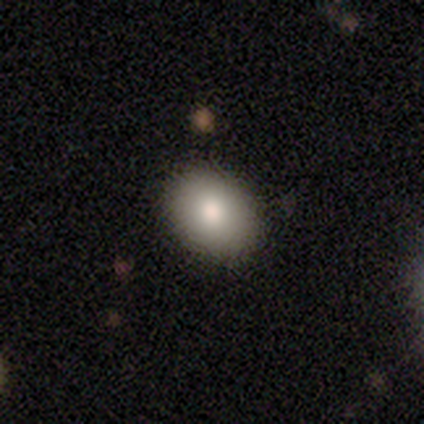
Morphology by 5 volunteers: This is clearly a smooth galaxy (80%). How rounded: clearly in between (100%). Merging: likely none (60%).